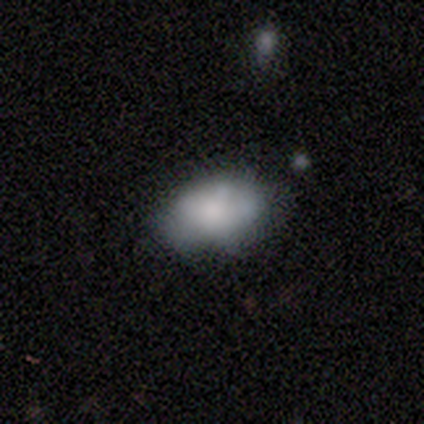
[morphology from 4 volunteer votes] Smooth or featured? 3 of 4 (75%) said smooth. How rounded? 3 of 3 (100%) said in between. Merging? 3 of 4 (75%) said none.